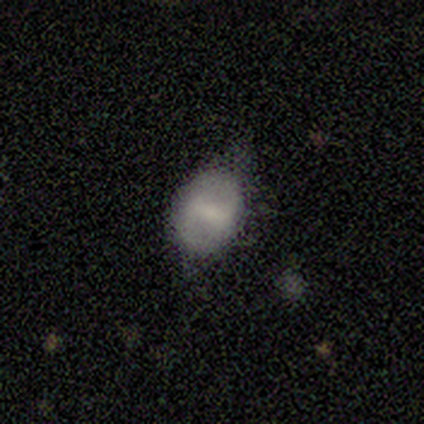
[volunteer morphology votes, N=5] Volunteers were most divided on "how rounded": in between: 75%, round: 25%, cigar-shaped: 0%. More confident: smooth or featured — smooth (80%); merging — none (80%).